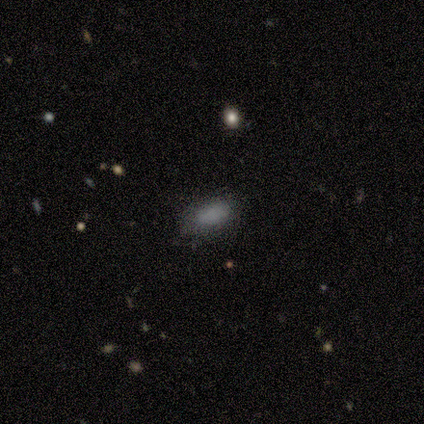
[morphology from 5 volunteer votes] A smooth galaxy with no disk features (80%) that is in between round and cigar-shaped (100%).

Vote fractions:
- Smooth or featured? smooth: 80% / featured or disk: 20% / star or artifact: 0%
- How rounded? in between: 100% / round: 0% / cigar-shaped: 0%
- Merging? none: 60% / minor disturbance: 20% / merger: 20% / major disturbance: 0%